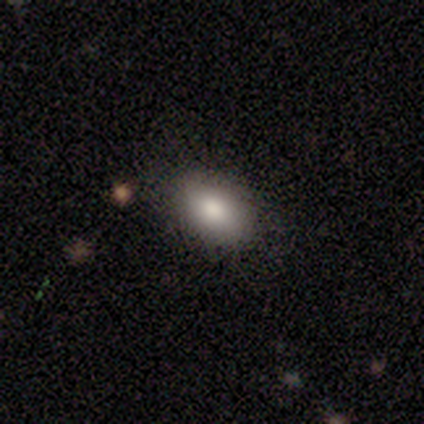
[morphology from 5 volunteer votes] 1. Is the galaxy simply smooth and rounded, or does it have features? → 100% smooth, 0% featured or disk, 0% star or artifact.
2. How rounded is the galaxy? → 60% in between, 40% round, 0% cigar-shaped.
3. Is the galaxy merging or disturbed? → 80% none, 20% minor disturbance, 0% major disturbance, 0% merger.